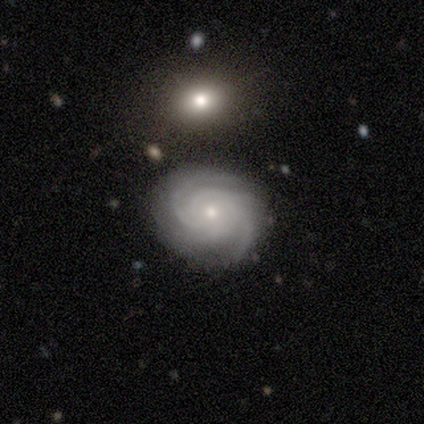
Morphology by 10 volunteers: type=featured or disk (100%); edge-on=no (100%); bar=no (100%); spiral arms=yes (100%); winding=tight (60%); arm count=4 (90%); bulge=small (70%); merging=none (90%).